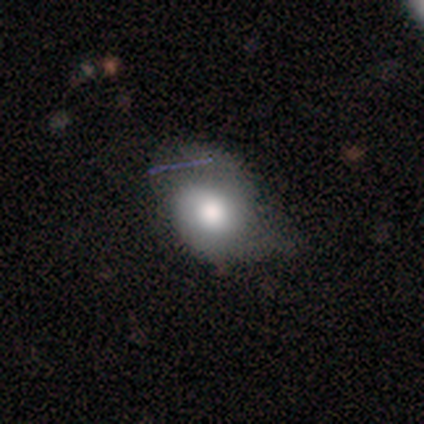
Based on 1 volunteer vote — Smooth or featured: featured or disk — 100%
Edge-on disk: no — 100%
Bar: no — 100%
Spiral arms: yes — 100%
Spiral winding: tight — 100%
Spiral arm count: 2 — 100%
Bulge size: none — 100%
Merging: none — 100%